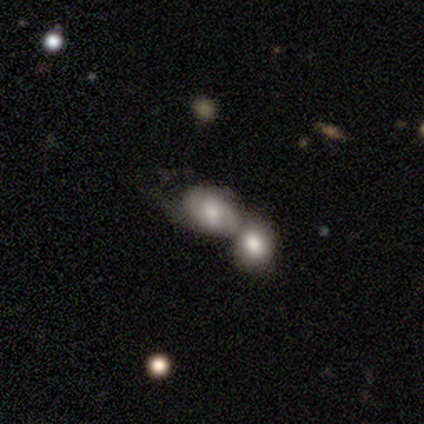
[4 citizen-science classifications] A smooth galaxy with no disk features (50%, tied with featured or disk) that is round (50%, tied with in between).

Vote fractions:
- Smooth or featured? smooth: 50% (tied) / featured or disk: 50% (tied) / star or artifact: 0%
- How rounded? round: 50% (tied) / in between: 50% (tied) / cigar-shaped: 0%
- Merging? merger: 100% / none: 0% / minor disturbance: 0% / major disturbance: 0%